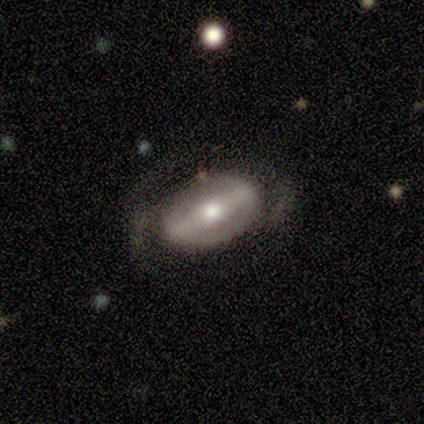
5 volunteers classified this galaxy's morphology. This appears to be a featured or disk galaxy (100%) with a strong bar (60%), no spiral arms (100%) and a moderate central bulge (80%). Merging: none (60%).